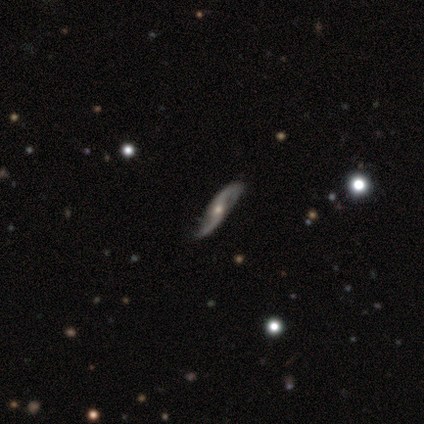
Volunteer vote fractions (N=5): Smooth or featured? featured or disk (100%)
Edge-on disk? no (80%)
Bar? no (75%)
Spiral arms? yes (100%)
Spiral winding? loose (75%)
Spiral arm count? 2 (100%)
Bulge size? moderate (75%)
Merging? none (60%)